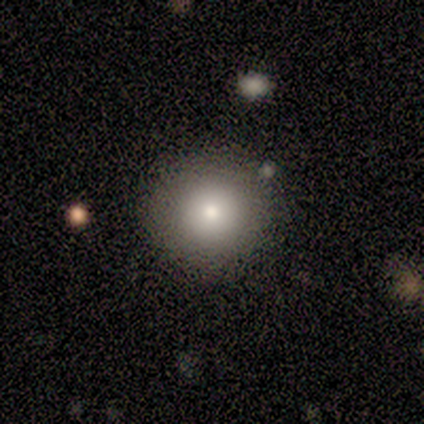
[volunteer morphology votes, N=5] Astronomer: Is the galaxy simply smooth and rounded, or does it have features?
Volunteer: smooth — 100%.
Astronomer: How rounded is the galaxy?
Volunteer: round — 100%.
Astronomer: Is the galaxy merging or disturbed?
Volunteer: none — 100%.